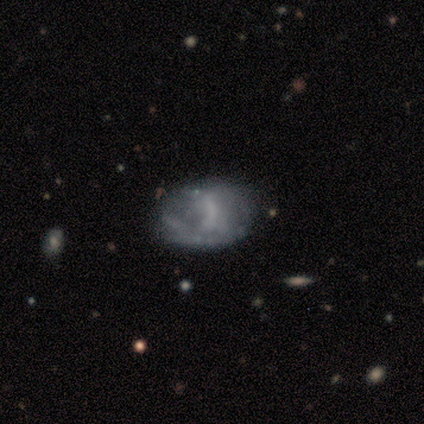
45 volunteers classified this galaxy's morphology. Smooth or featured?
  - smooth: 47% *
  - featured or disk: 44%
  - star or artifact: 9%
How rounded?
  - in between: 81% *
  - round: 19%
  - cigar-shaped: 0%
Merging?
  - none: 49% *
  - major disturbance: 24%
  - minor disturbance: 22%
  - merger: 5%